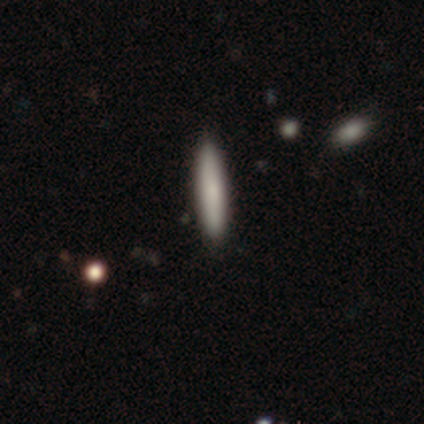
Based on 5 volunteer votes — A smooth galaxy with no disk features (80%) that is cigar-shaped (100%).

Vote fractions:
- Smooth or featured? smooth: 80% / star or artifact: 20% / featured or disk: 0%
- How rounded? cigar-shaped: 100% / round: 0% / in between: 0%
- Merging? none: 100% / minor disturbance: 0% / major disturbance: 0% / merger: 0%